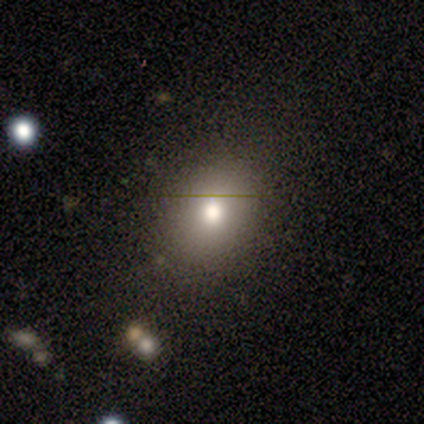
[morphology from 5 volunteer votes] smooth 80%, star or artifact 20%, featured or disk 0%. Down the decision tree: how rounded — in between (75%); merging — none (100%).